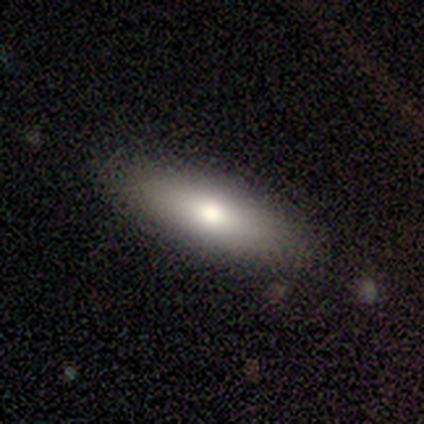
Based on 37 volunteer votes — Smooth or featured: smooth — 57% (featured or disk — 35%)
How rounded: in between — 52% (cigar-shaped — 48%)
Merging: none — 100%